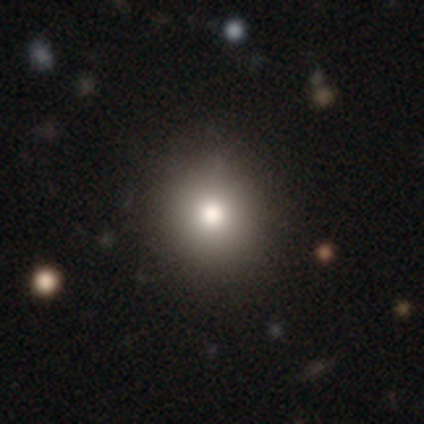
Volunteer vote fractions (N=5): This is clearly a smooth galaxy (80%). How rounded: clearly round (100%). Merging: clearly none (100%).